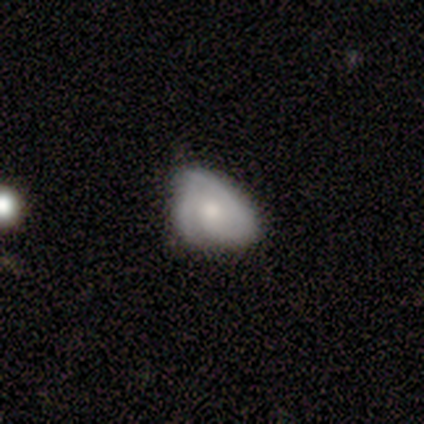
This is likely a featured or disk galaxy (67%). It is clearly not viewed edge-on (100%). Bar: clearly no (83%). Spiral arm pattern: clearly yes (100%). Spiral arm count: possibly 1 (50%). Spiral winding: likely tight (67%). Central bulge: possibly moderate (50%). Merging: possibly none (56%).